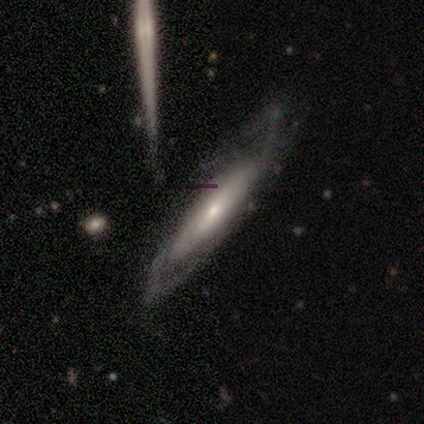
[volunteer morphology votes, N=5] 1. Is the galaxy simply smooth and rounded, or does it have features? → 40% smooth (tied), 40% featured or disk (tied), 20% star or artifact.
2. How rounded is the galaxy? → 50% in between (tied), 50% cigar-shaped (tied), 0% round.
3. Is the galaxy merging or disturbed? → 25% none (tied), 25% minor disturbance (tied), 25% major disturbance (tied), 25% merger (tied).